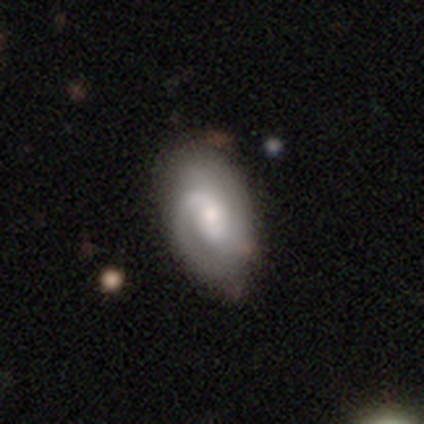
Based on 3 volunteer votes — A featured or disk galaxy (67%) with no bar (100%), 1 (50%, tied with 2) tight (50%, tied with loose) spiral arms (100%) and a moderate central bulge (50%, tied with small). Merging: none (100%).